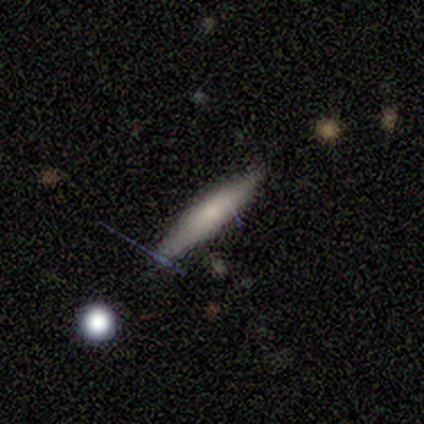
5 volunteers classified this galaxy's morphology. Smooth or featured?
  - smooth: 80% *
  - star or artifact: 20%
  - featured or disk: 0%
How rounded?
  - cigar-shaped: 100% *
  - round: 0%
  - in between: 0%
Merging?
  - none: 100% *
  - minor disturbance: 0%
  - major disturbance: 0%
  - merger: 0%